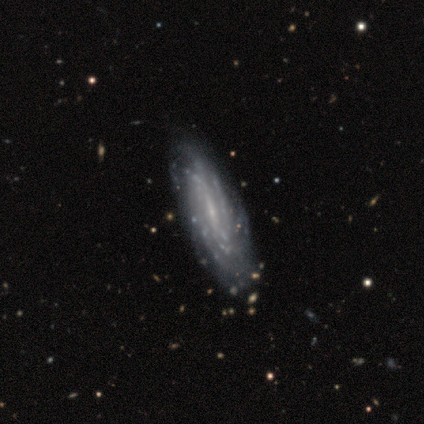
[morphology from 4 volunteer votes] Overall: featured or disk (100%). Edge-on disk: no (75%). Bar: strong (100%). Spiral arms: yes (100%). Spiral arm count: can't tell (67%; more than 4 33%). Spiral winding: tight (67%; medium 33%). Bulge size: none (67%; small 33%). Merging: none (75%).